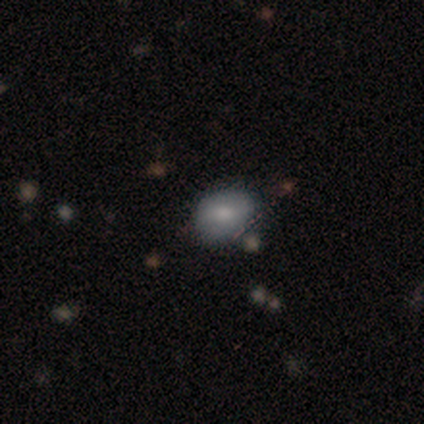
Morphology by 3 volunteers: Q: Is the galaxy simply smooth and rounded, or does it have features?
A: smooth — 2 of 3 (67%).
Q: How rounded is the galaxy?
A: in between — 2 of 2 (100%).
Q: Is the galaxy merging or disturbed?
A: none — 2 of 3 (67%).